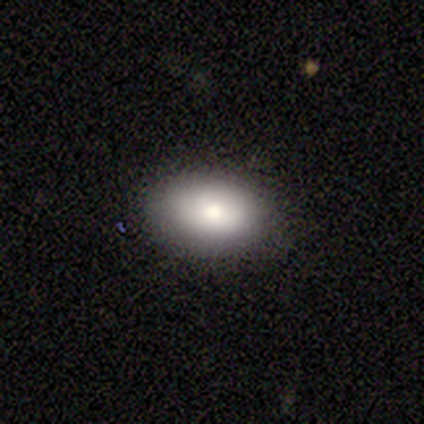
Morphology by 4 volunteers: A smooth galaxy with no disk features (75%) that is in between round and cigar-shaped (100%).

Vote fractions:
- Smooth or featured? smooth: 75% / featured or disk: 25% / star or artifact: 0%
- How rounded? in between: 100% / round: 0% / cigar-shaped: 0%
- Merging? none: 100% / minor disturbance: 0% / major disturbance: 0% / merger: 0%